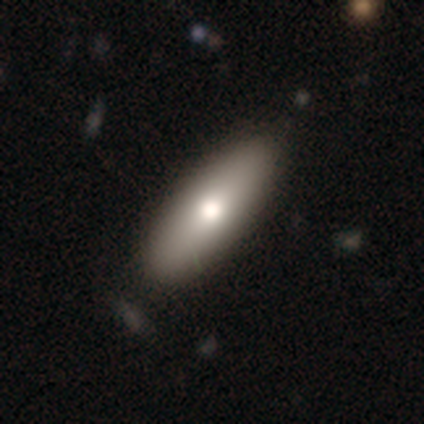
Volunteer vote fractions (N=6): Smooth or featured? 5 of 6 (83%) said smooth. How rounded? 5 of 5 (100%) said in between. Merging? 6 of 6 (100%) said none.